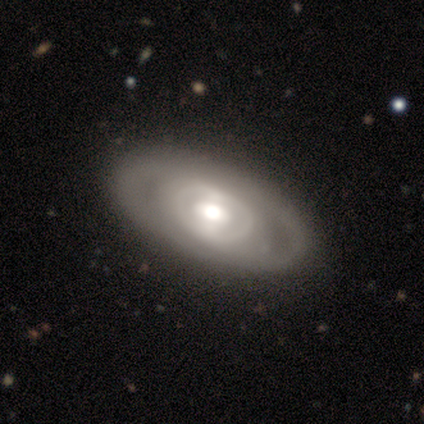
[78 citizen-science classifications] Smooth or featured?
  - featured or disk: 68% *
  - smooth: 32%
  - star or artifact: 0%
Edge-on disk?
  - no: 91% *
  - yes: 9%
Bar?
  - no: 58% *
  - weak: 23%
  - strong: 19%
Spiral arms?
  - no: 65% *
  - yes: 35%
Bulge size?
  - moderate: 58% *
  - large: 25%
  - small: 10%
  - dominant: 6%
  - none: 0%
Merging?
  - none: 64% *
  - minor disturbance: 13%
  - major disturbance: 3%
  - merger: 1%